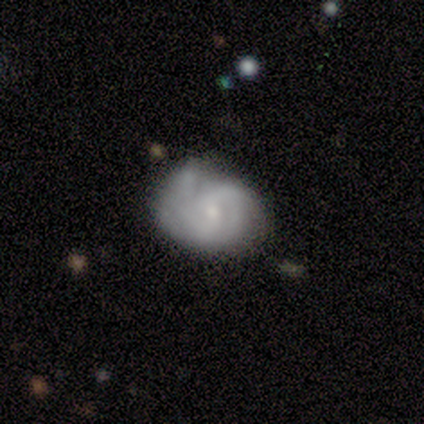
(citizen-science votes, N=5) smooth_or_featured: featured or disk (p=0.60) [alt: smooth p=0.40]
disk_edge_on: no (p=1.00)
bar: no (p=1.00)
has_spiral_arms: yes (p=0.67) [alt: no p=0.33]
spiral_winding: medium (p=0.50) [tied with: loose p=0.50]
spiral_arm_count: can't tell (p=1.00)
bulge_size: small (p=0.67) [alt: moderate p=0.33]
merging: minor disturbance (p=0.60) [alt: none p=0.40]